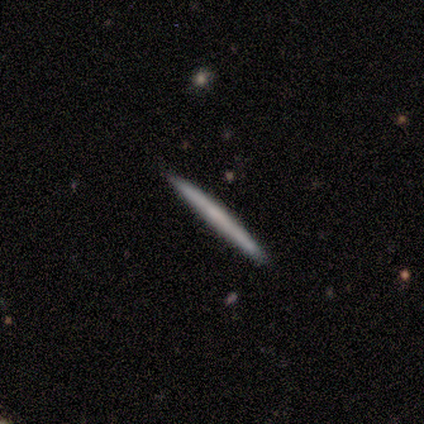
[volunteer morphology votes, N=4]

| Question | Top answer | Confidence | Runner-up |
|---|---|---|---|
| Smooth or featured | smooth | 50% | tied: featured or disk (50%) |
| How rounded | cigar-shaped | 100% | — |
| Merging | none | 100% | — |